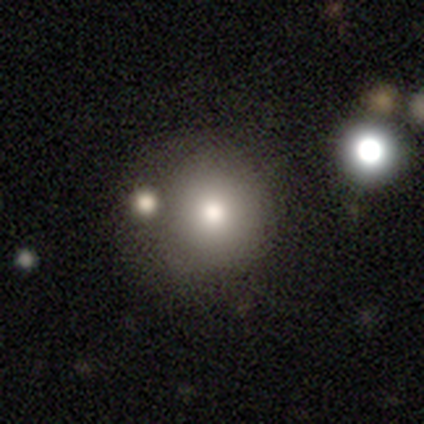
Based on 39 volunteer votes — This is likely a smooth galaxy (79%). How rounded: clearly round (97%). Merging: marginally none (38%).